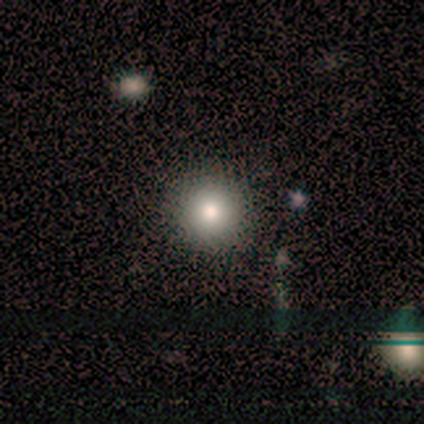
Overall: smooth (80%). How rounded: round (100%). Merging: none (100%).